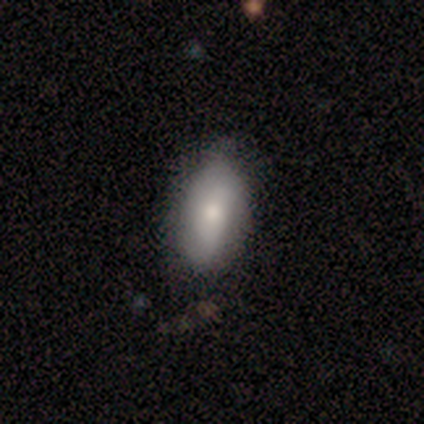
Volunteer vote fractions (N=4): Smooth or featured: smooth — 75% (featured or disk — 25%)
How rounded: in between — 100%
Merging: none — 100%